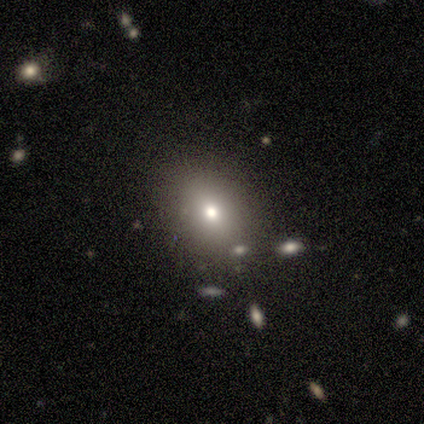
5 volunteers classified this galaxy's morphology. smooth 60%, featured or disk 20%, star or artifact 20%. Down the decision tree: how rounded — in between (100%); merging — none (75%).